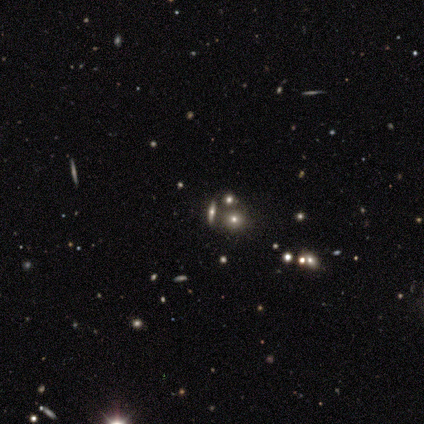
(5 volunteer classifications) This is likely a smooth galaxy (60%). How rounded: likely round (67%). Merging: possibly merger (50%).